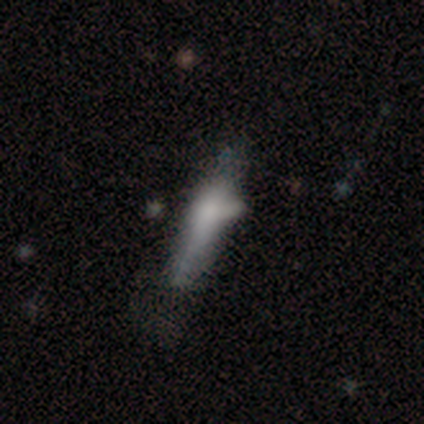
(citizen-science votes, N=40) smooth 55%, featured or disk 38%, star or artifact 8%. Down the decision tree: how rounded — cigar-shaped (91%); merging — none (32%).